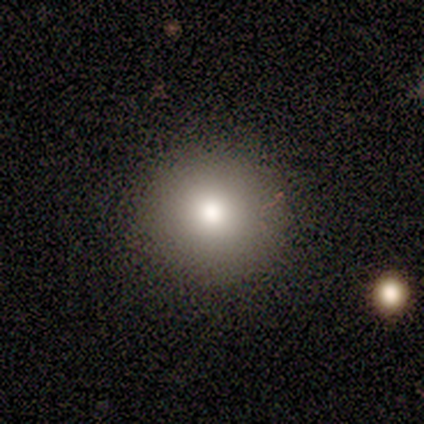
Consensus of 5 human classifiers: Overall: smooth (80%). How rounded: round (100%). Merging: none (100%).